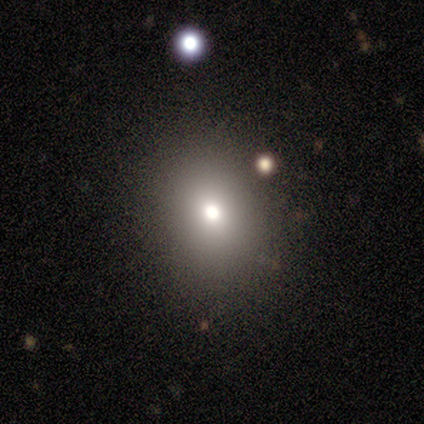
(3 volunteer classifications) Smooth or featured?
  - smooth: 100% *
  - featured or disk: 0%
  - star or artifact: 0%
How rounded?
  - round: 100% *
  - in between: 0%
  - cigar-shaped: 0%
Merging?
  - none: 67% *
  - major disturbance: 33%
  - minor disturbance: 0%
  - merger: 0%